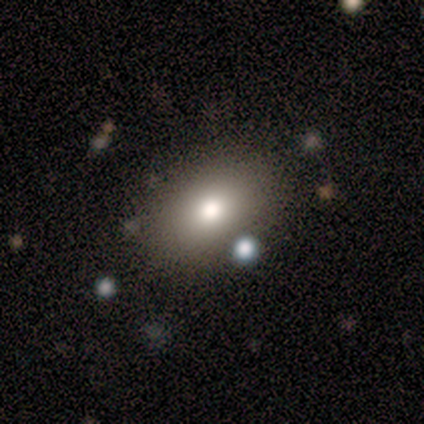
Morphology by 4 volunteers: A smooth galaxy with no disk features (75%) that is in between round and cigar-shaped (100%). Merging: none (75%).